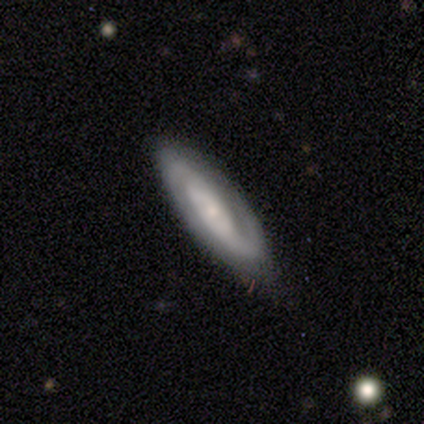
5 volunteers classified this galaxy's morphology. Smooth or featured? 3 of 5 (60%) said featured or disk. Edge-on disk? 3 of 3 (100%) said no. Bar? 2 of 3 (67%) said weak. Spiral arms? 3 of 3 (100%) said yes. Spiral winding? 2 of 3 (67%) said loose. Spiral arm count? 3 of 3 (100%) said 2. Bulge size? 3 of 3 (100%) said small. Merging? 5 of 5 (100%) said none.